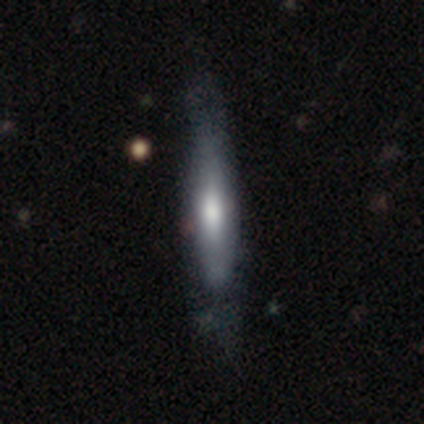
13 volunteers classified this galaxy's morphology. type=smooth (62%); roundness=cigar-shaped (88%); merging=none (75%).